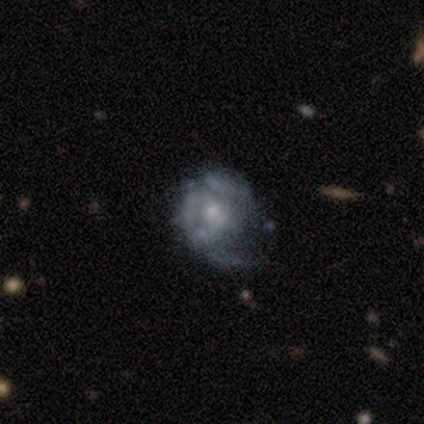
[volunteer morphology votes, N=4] Smooth or featured? 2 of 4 (50%, tied with featured or disk) said smooth. How rounded? 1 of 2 (50%, tied with in between) said round. Merging? 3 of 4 (75%) said none.